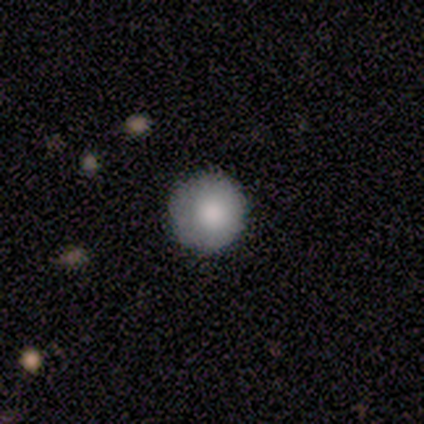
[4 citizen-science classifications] Smooth or featured?
  - smooth: 100% *
  - featured or disk: 0%
  - star or artifact: 0%
How rounded?
  - round: 100% *
  - in between: 0%
  - cigar-shaped: 0%
Merging?
  - none: 100% *
  - minor disturbance: 0%
  - major disturbance: 0%
  - merger: 0%